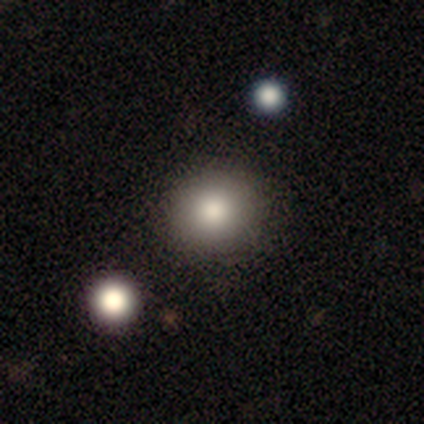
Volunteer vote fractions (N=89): This is likely a smooth galaxy (76%). How rounded: clearly round (90%). Merging: clearly none (95%).